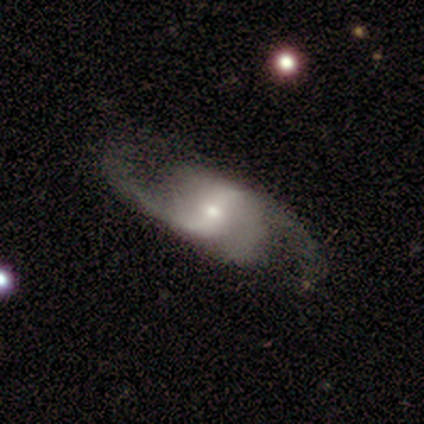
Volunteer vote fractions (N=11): Morphology: type=featured or disk (100%); edge-on=no (100%); bar=weak (55%); spiral arms=yes (91%); winding=medium (50%); arm count=2 (70%); bulge=small (73%); merging=none (100%).